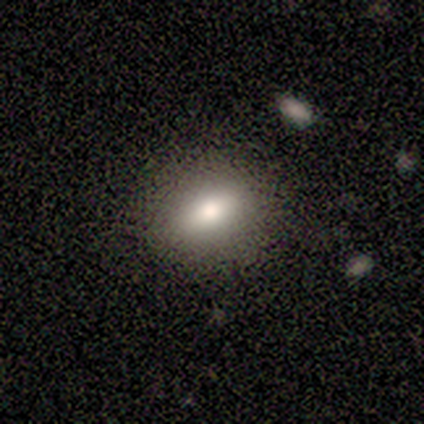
Smooth or featured? smooth (100%)
How rounded? in between (100%)
Merging? none (100%)